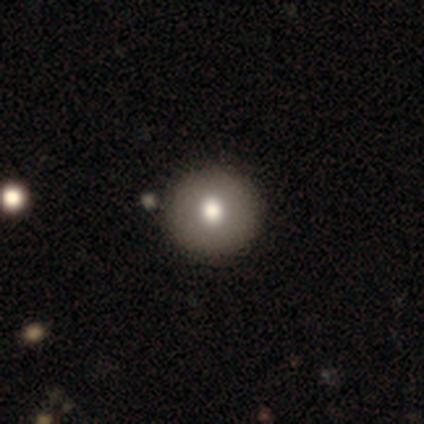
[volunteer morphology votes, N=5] Smooth or featured: smooth — 80% (star or artifact — 20%)
How rounded: round — 100%
Merging: none — 100%